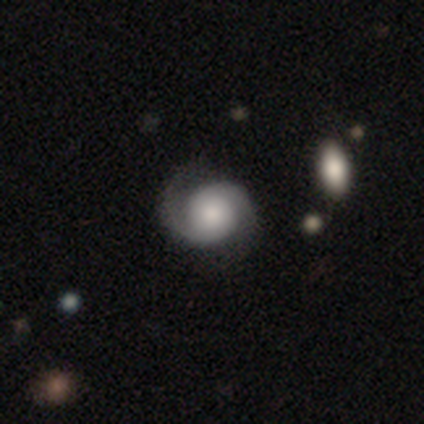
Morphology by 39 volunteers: Smooth or featured: featured or disk — 79% (smooth — 15%)
Edge-on disk: no — 100%
Bar: no — 74% (weak — 19%)
Spiral arms: yes — 100%
Spiral winding: medium — 48% (tight — 39%)
Spiral arm count: 2 — 87% (3 — 6%)
Bulge size: moderate — 39% (large — 23%)
Merging: none — 78% (minor disturbance — 14%)